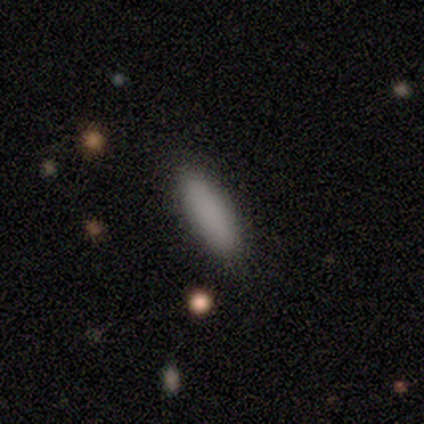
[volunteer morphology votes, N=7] This is clearly a smooth galaxy (100%). How rounded: possibly cigar-shaped (57%). Merging: clearly none (86%).